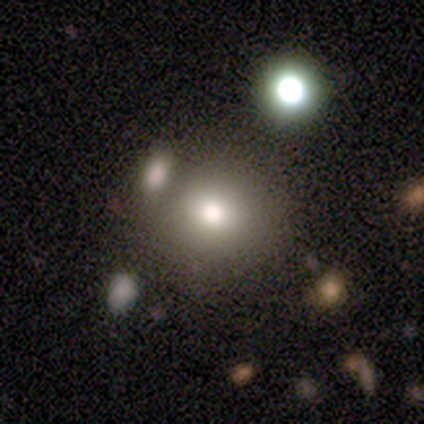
Smooth or featured? 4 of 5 (80%) said smooth. How rounded? 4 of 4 (100%) said round. Merging? 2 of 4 (50%, tied with merger) said none.